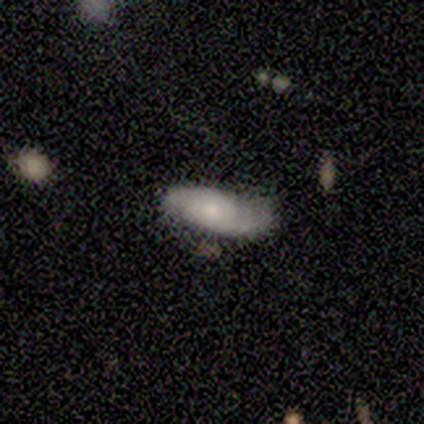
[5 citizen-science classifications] Smooth or featured?
  - smooth: 80% *
  - featured or disk: 20%
  - star or artifact: 0%
How rounded?
  - in between: 75% *
  - cigar-shaped: 25%
  - round: 0%
Merging?
  - none: 80% *
  - major disturbance: 20%
  - minor disturbance: 0%
  - merger: 0%